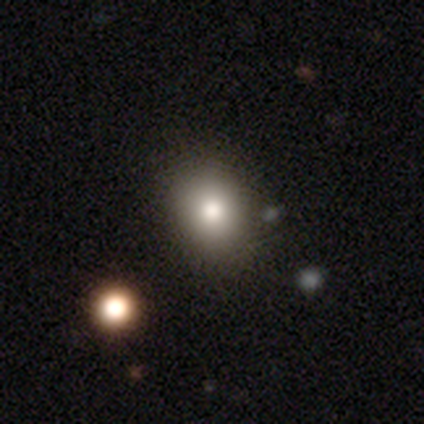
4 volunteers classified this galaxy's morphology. Smooth or featured? smooth (100%)
How rounded? round (100%)
Merging? none (75%)